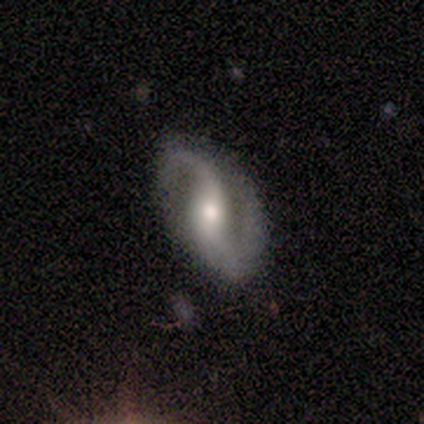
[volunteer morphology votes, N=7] Smooth or featured? 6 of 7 (86%) said featured or disk. Edge-on disk? 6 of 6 (100%) said no. Bar? 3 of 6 (50%, tied with no) said weak. Spiral arms? 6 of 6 (100%) said yes. Spiral winding? 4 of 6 (67%) said medium. Spiral arm count? 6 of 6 (100%) said 2. Bulge size? 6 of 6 (100%) said moderate. Merging? 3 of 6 (50%, tied with minor disturbance) said none.